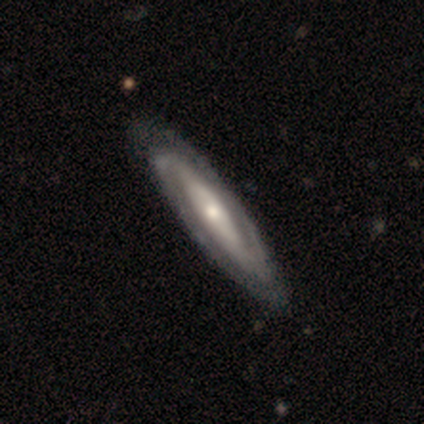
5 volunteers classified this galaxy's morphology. A featured or disk galaxy (100%) with a strong bar (40%, tied with weak), 2 (40%, tied with can't tell) tight (40%, tied with loose) spiral arms (100%) and a moderate central bulge (80%).

Vote fractions:
- Smooth or featured? featured or disk: 100% / smooth: 0% / star or artifact: 0%
- Edge-on disk? no: 100% / yes: 0%
- Bar? strong: 40% (tied) / weak: 40% (tied) / no: 20%
- Spiral arms? yes: 100% / no: 0%
- Spiral winding? tight: 40% (tied) / loose: 40% (tied) / medium: 20%
- Spiral arm count? 2: 40% (tied) / can't tell: 40% (tied) / 3: 20% / 1: 0% / 4: 0% / more than 4: 0%
- Bulge size? moderate: 80% / small: 20% / dominant: 0% / large: 0% / none: 0%
- Merging? none: 100% / minor disturbance: 0% / major disturbance: 0% / merger: 0%